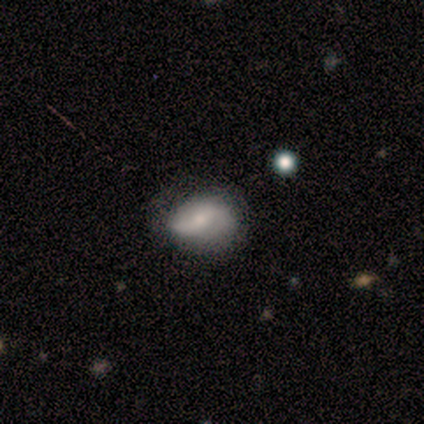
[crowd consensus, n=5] Smooth or featured? featured or disk (100%)
Edge-on disk? no (100%)
Bar? no (60%)
Spiral arms? yes (80%)
Spiral winding? loose (75%)
Spiral arm count? 1 (50%)
Bulge size? small (60%)
Merging? none (60%)